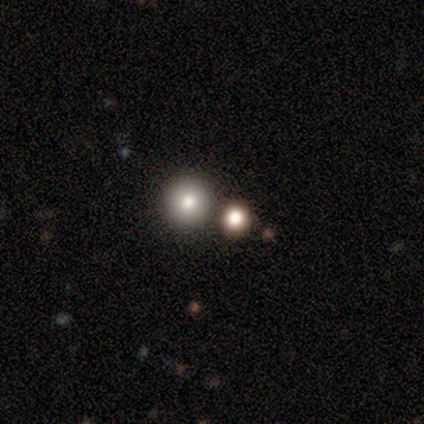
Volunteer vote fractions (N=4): smooth 100%, featured or disk 0%, star or artifact 0%. Down the decision tree: how rounded — round (75%); merging — none (75%).